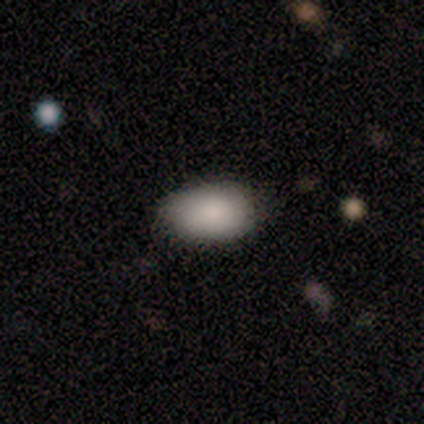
A smooth galaxy with no disk features (93%) that is in between round and cigar-shaped (93%).

Vote fractions:
- Smooth or featured? smooth: 93% / featured or disk: 7% / star or artifact: 0%
- How rounded? in between: 93% / round: 7% / cigar-shaped: 0%
- Merging? none: 87% / minor disturbance: 13% / major disturbance: 0% / merger: 0%